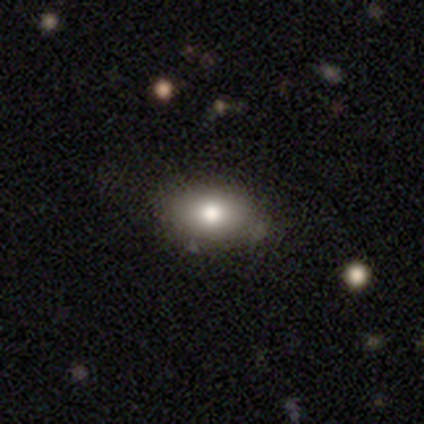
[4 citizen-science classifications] This is possibly a smooth galaxy (50%, tied with featured or disk). How rounded: clearly in between (100%). Merging: likely none (75%).